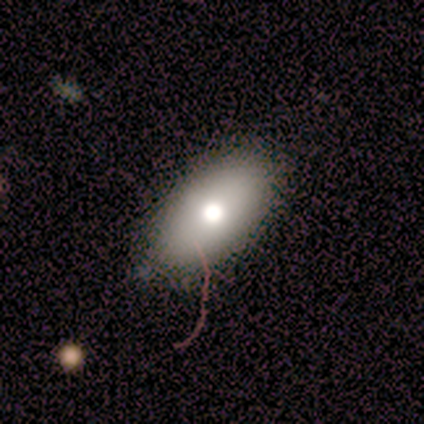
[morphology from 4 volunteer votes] smooth-or-featured: smooth: 100% | featured or disk: 0% | star or artifact: 0%
  how-rounded: in between: 100% | round: 0% | cigar-shaped: 0%
  merging: none: 100% | minor disturbance: 0% | major disturbance: 0% | merger: 0%